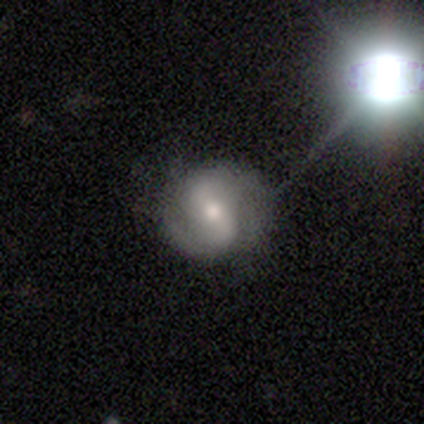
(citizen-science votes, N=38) featured or disk 71%, smooth 21%, star or artifact 8%. Down the decision tree: edge-on disk — no (100%); bar — weak (59%); spiral arms — yes (85%); spiral arm count — 2 (78%); spiral winding — medium (39%); bulge size — moderate (56%); merging — none (74%).